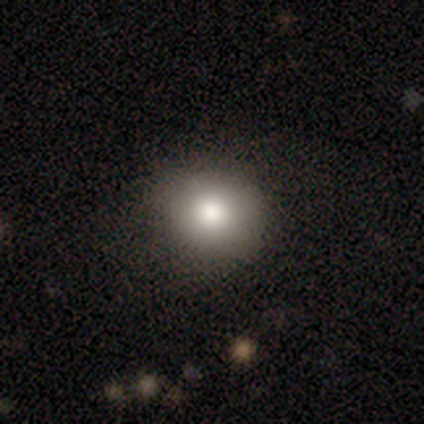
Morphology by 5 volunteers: Q: Smooth or featured?
A: smooth (60%); runner-up: featured or disk (40%)
Q: How rounded?
A: round (100%)
Q: Merging?
A: none (80%); runner-up: minor disturbance (20%)